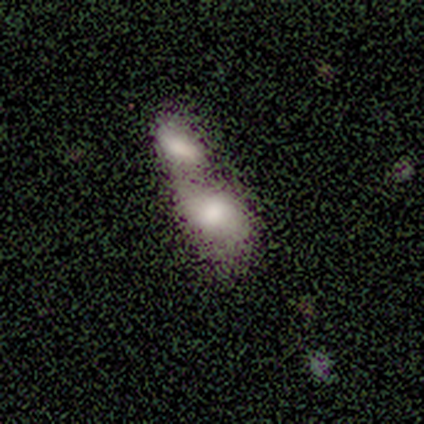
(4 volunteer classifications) smooth-or-featured: smooth: 75% | featured or disk: 25% | star or artifact: 0%
  how-rounded: in between: 100% | round: 0% | cigar-shaped: 0%
  merging: merger: 100% | none: 0% | minor disturbance: 0% | major disturbance: 0%